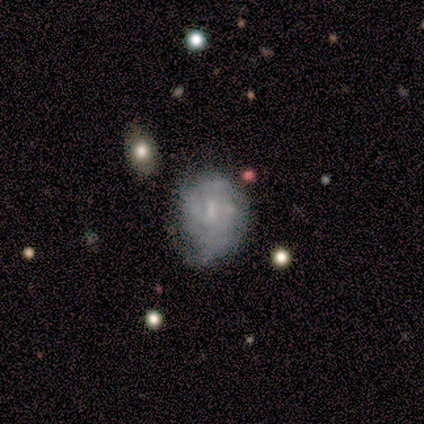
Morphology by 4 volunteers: A featured or disk galaxy (75%) with a weak bar (100%), 3 (50%, tied with can't tell) tight (100%) spiral arms (67%) and a small central bulge (67%). Merging: minor disturbance (75%).